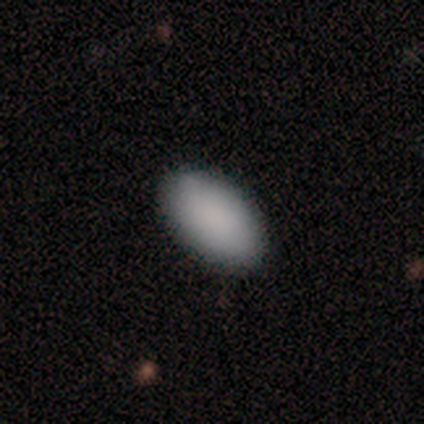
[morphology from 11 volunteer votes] Q: Smooth or featured?
A: smooth (91%); runner-up: star or artifact (9%)
Q: How rounded?
A: in between (100%)
Q: Merging?
A: none (100%)